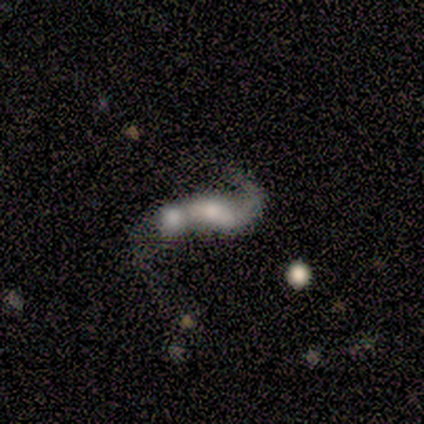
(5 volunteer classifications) This appears to be a featured or disk galaxy (80%) viewed edge-on (50%, tied with no) with a boxy central bulge (100%). Merging: merger (60%).